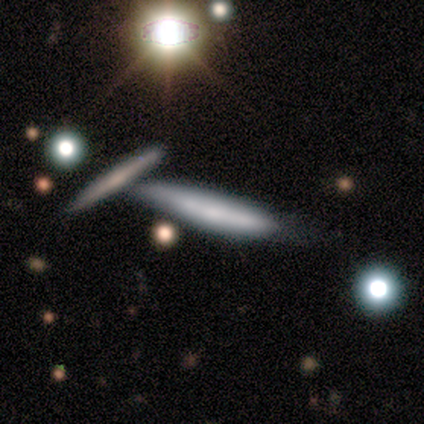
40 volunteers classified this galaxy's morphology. Smooth or featured?
  - smooth: 50% *
  - featured or disk: 35%
  - star or artifact: 15%
How rounded?
  - cigar-shaped: 100% *
  - round: 0%
  - in between: 0%
Merging?
  - merger: 44% *
  - none: 35%
  - minor disturbance: 21%
  - major disturbance: 0%